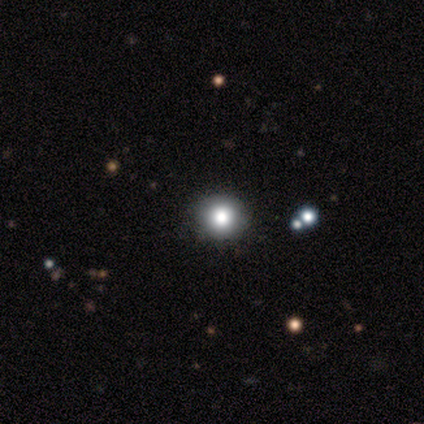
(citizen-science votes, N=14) smooth 79%, star or artifact 14%, featured or disk 7%. Down the decision tree: how rounded — round (100%); merging — none (92%).